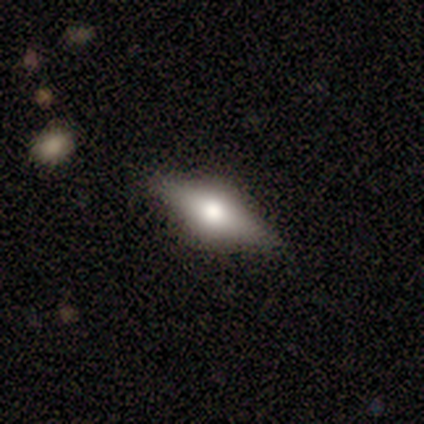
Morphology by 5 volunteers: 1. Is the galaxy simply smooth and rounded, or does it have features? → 80% featured or disk, 20% smooth, 0% star or artifact.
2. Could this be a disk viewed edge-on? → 100% yes, 0% no.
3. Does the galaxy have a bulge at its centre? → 100% rounded, 0% boxy, 0% none.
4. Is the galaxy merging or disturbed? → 60% none, 40% minor disturbance, 0% major disturbance, 0% merger.